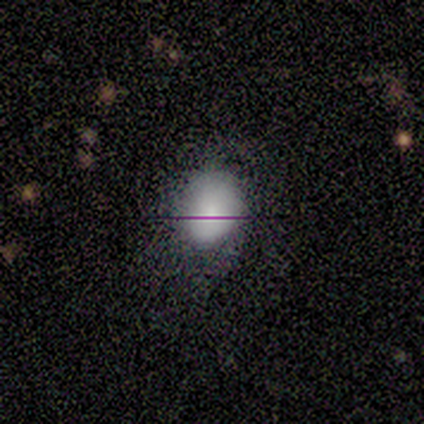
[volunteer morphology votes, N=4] smooth 75%, star or artifact 25%, featured or disk 0%. Down the decision tree: how rounded — round (100%); merging — none (33%, tied with minor disturbance and major disturbance).